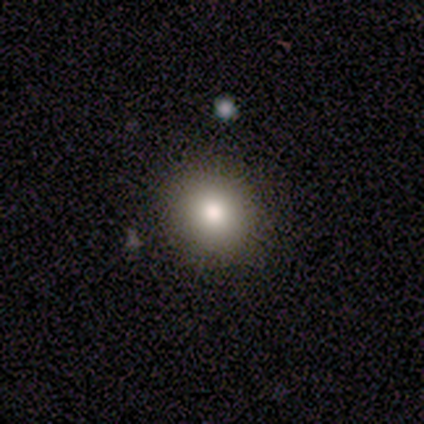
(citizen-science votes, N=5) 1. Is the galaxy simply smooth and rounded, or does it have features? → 100% smooth, 0% featured or disk, 0% star or artifact.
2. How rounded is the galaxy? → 100% round, 0% in between, 0% cigar-shaped.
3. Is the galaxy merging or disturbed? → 100% none, 0% minor disturbance, 0% major disturbance, 0% merger.